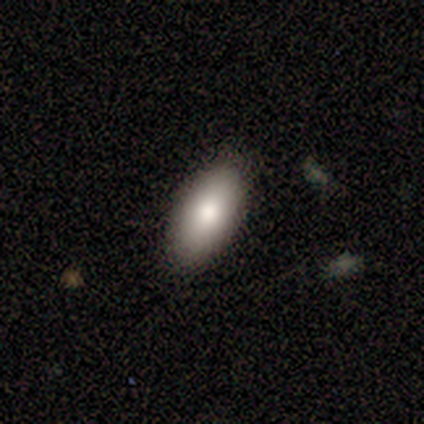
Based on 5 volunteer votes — Q: Smooth or featured?
A: smooth (100%)
Q: How rounded?
A: in between (100%)
Q: Merging?
A: none (80%); runner-up: minor disturbance (20%)